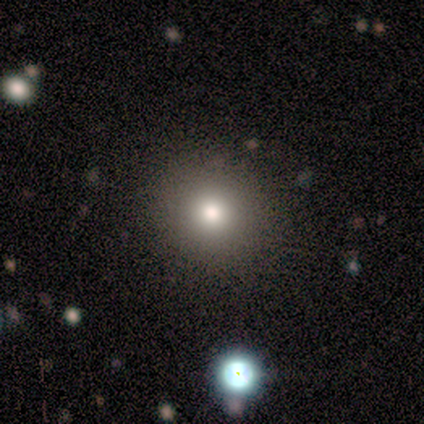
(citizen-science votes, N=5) This is clearly a smooth galaxy (80%). How rounded: clearly round (100%). Merging: clearly none (100%).